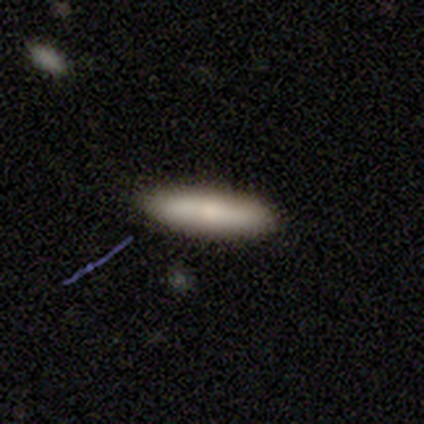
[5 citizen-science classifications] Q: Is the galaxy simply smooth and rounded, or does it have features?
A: smooth — 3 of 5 (60%).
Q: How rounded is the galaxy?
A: cigar-shaped — 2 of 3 (67%).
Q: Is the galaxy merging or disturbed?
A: none — 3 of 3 (100%).